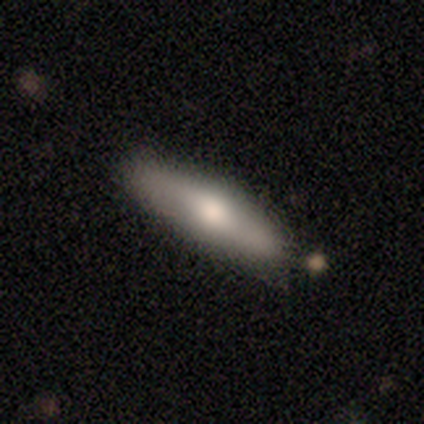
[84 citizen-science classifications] This is likely a smooth galaxy (64%). How rounded: likely cigar-shaped (76%). Merging: clearly none (80%).